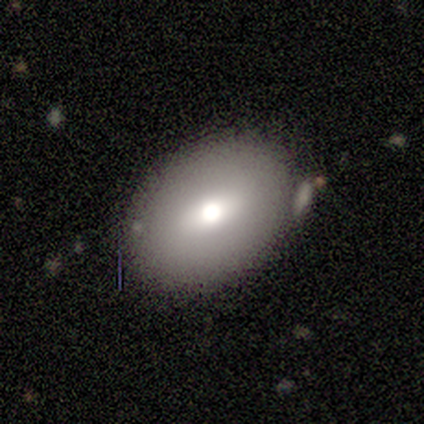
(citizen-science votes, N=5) This is clearly a smooth galaxy (80%). How rounded: likely in between (75%). Merging: clearly none (80%).